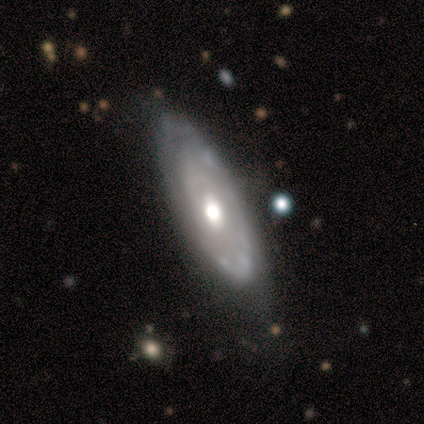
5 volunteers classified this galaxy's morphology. Smooth or featured: featured or disk — 100%
Edge-on disk: no — 60% (yes — 40%)
Bar: no — 100%
Spiral arms: no — 100%
Bulge size: moderate — 67% (small — 33%)
Merging: minor disturbance — 60% (none — 20%)